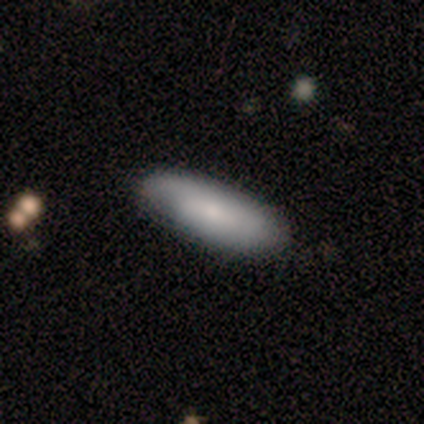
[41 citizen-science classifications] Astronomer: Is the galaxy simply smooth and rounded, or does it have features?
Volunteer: smooth — 76%.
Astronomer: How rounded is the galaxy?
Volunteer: in between — 68%.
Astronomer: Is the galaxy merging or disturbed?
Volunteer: none — 62%.